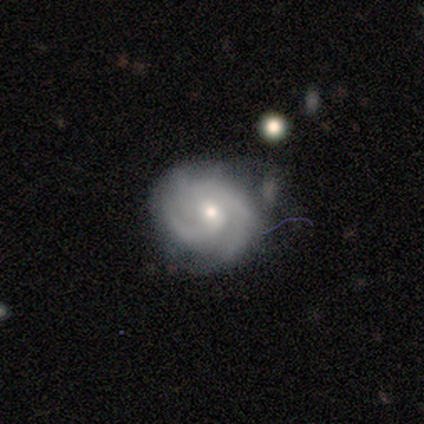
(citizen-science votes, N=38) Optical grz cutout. It shows a featured or disk galaxy (79%) with no bar (57%), 2 (28%) tight (72%) spiral arms (97%) and a moderate central bulge (50%). Merging: none (65%).